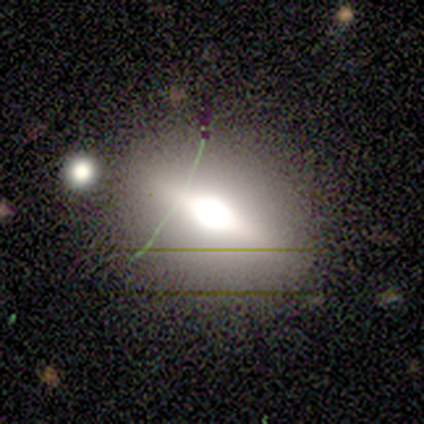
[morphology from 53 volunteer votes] A featured or disk galaxy (43%) viewed edge-on (78%) with a rounded central bulge (89%). Merging: none (77%).